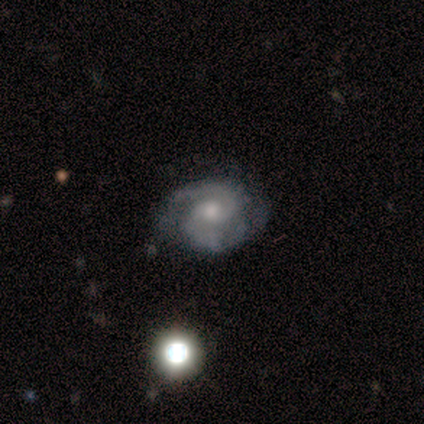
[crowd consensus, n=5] Q: Smooth or featured?
A: featured or disk (100%)
Q: Edge-on disk?
A: no (100%)
Q: Bar?
A: no (60%); runner-up: weak (40%)
Q: Spiral arms?
A: yes (100%)
Q: Spiral winding?
A: tight (80%); runner-up: medium (20%)
Q: Spiral arm count?
A: 2 (100%)
Q: Bulge size?
A: moderate (60%); runner-up: small (40%)
Q: Merging?
A: none (100%)